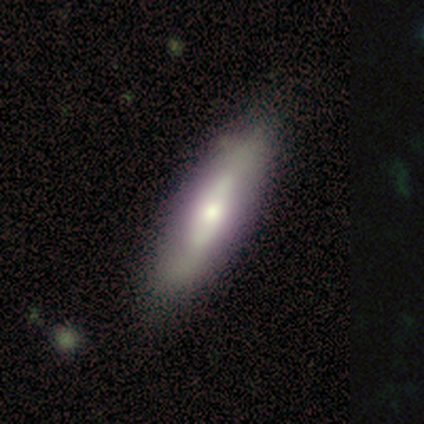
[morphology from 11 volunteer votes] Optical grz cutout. It shows a smooth galaxy with no disk features (64%) that is in between round and cigar-shaped (57%). Merging: none (73%).